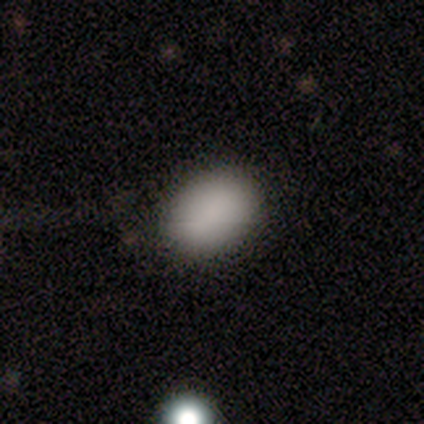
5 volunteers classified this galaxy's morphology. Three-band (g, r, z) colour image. It shows a smooth galaxy with no disk features (100%) that is in between round and cigar-shaped (100%). Merging: none (80%).